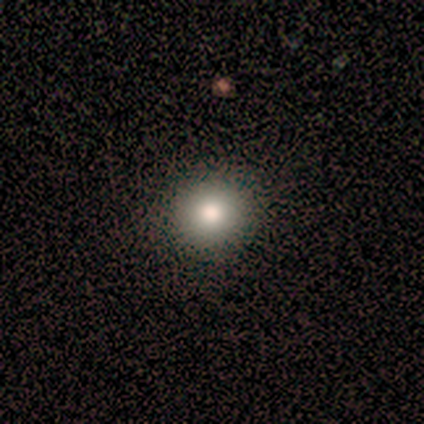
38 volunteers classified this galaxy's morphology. A smooth galaxy with no disk features (76%) that is round (97%). Merging: none (83%).